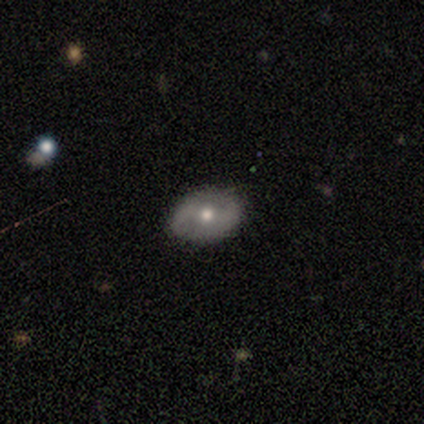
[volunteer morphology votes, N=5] This appears to be a featured or disk galaxy (60%) with a strong bar (33%, tied with weak and no), 2 (100%) tight (50%, tied with medium) spiral arms (67%) and a moderate central bulge (100%). Merging: none (50%).